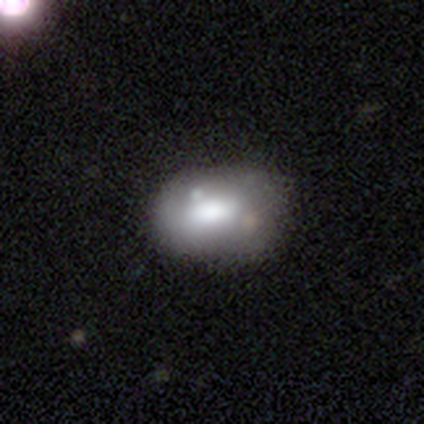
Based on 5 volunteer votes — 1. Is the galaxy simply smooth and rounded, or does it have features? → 60% smooth, 40% featured or disk, 0% star or artifact.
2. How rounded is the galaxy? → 67% in between, 33% round, 0% cigar-shaped.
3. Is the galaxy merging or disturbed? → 60% none, 20% minor disturbance, 20% merger, 0% major disturbance.